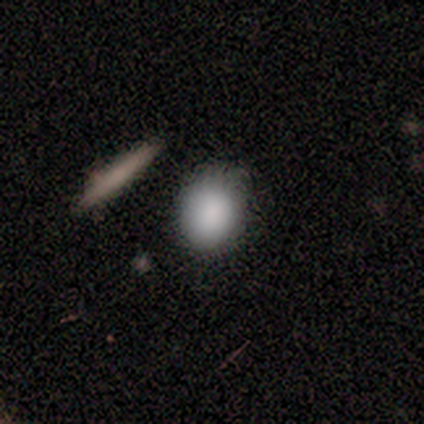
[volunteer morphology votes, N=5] This appears to be a smooth galaxy with no disk features (100%) that is round (60%). Merging: none (60%).